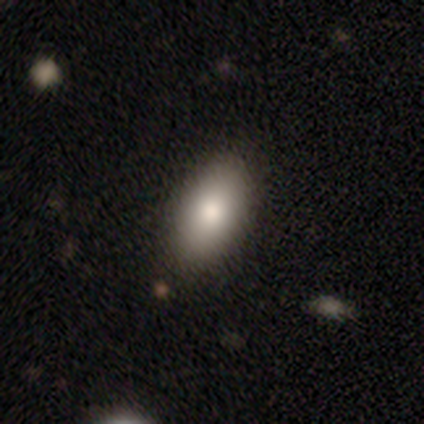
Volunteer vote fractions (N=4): This is possibly a smooth galaxy (50%, tied with featured or disk). How rounded: clearly in between (100%). Merging: clearly none (100%).